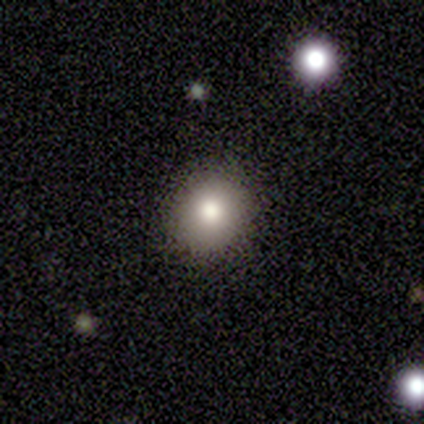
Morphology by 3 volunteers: smooth-or-featured: smooth: 67% | star or artifact: 33% | featured or disk: 0%
  how-rounded: round: 100% | in between: 0% | cigar-shaped: 0%
  merging: none: 50% (tied) | minor disturbance: 50% (tied) | major disturbance: 0% | merger: 0%